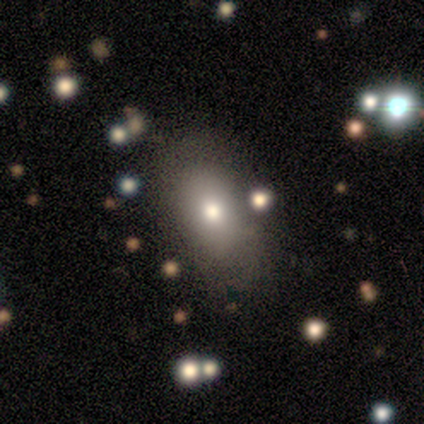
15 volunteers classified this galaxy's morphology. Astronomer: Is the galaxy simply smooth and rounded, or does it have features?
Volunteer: smooth — 93%.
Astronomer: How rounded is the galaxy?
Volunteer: in between — 86%.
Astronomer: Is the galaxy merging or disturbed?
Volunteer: none — 67%.